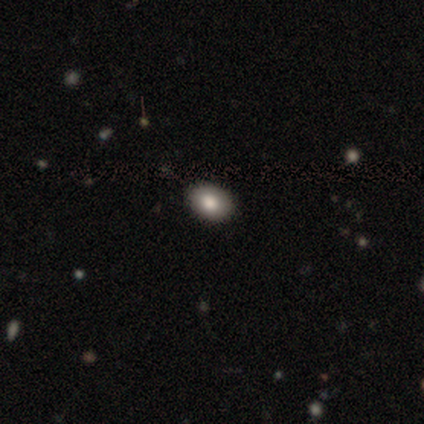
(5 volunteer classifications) smooth_or_featured: smooth (p=1.00)
how_rounded: in between (p=1.00)
merging: none (p=0.80) [alt: minor disturbance p=0.20]